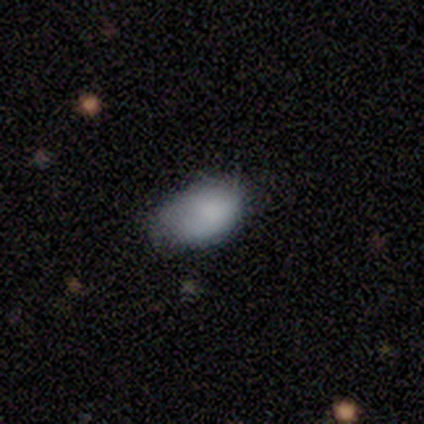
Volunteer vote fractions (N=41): Morphology: type=smooth (85%); roundness=in between (89%); merging=none (56%).